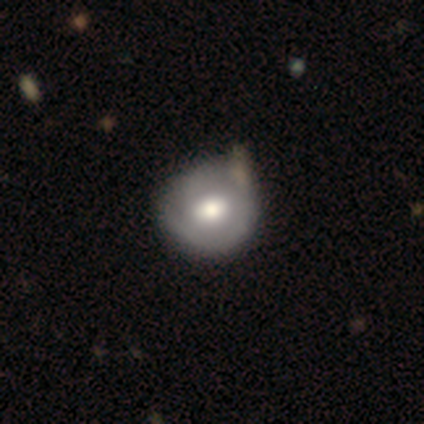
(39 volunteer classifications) Smooth or featured? smooth (51%)
How rounded? round (80%)
Merging? none (37%)